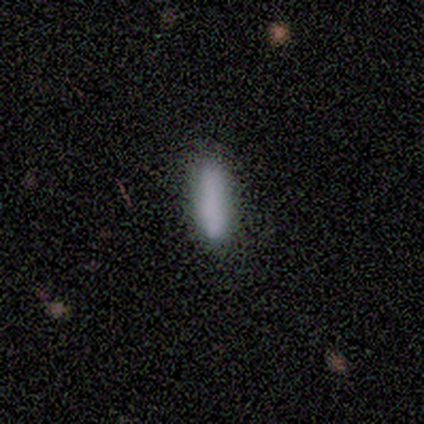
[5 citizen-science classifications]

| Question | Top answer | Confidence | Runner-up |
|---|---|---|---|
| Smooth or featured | smooth | 100% | — |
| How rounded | in between | 60% | cigar-shaped (40%) |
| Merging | none | 100% | — |